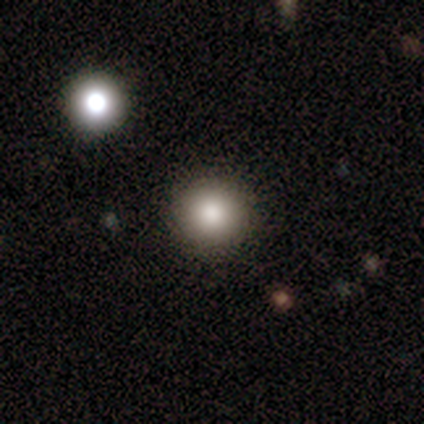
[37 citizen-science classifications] smooth 86%, star or artifact 8%, featured or disk 5%. Down the decision tree: how rounded — round (97%); merging — none (91%).